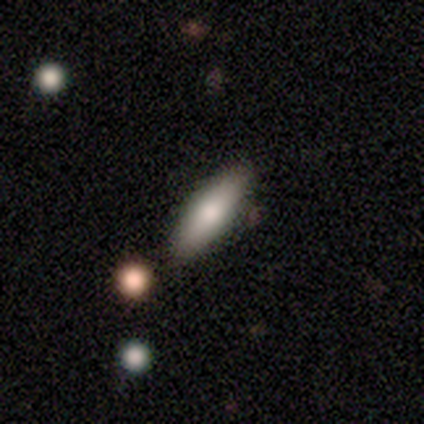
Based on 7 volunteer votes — smooth_or_featured: smooth (p=0.71) [alt: featured or disk p=0.29]
how_rounded: cigar-shaped (p=0.80) [alt: round p=0.20]
merging: none (p=0.71) [alt: merger p=0.29]